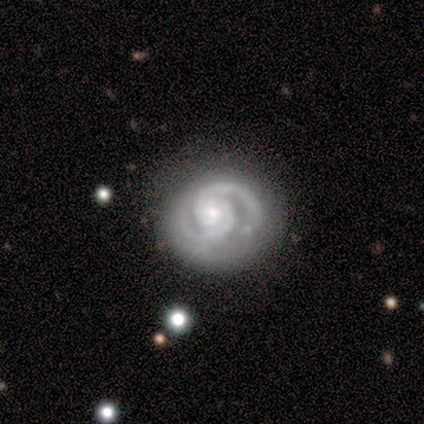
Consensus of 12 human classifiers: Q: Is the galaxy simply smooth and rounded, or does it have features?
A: featured or disk — 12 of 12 (100%).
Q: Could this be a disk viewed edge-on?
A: no — 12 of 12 (100%).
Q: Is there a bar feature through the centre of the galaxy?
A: no — 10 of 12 (83%).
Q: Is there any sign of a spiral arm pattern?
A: yes — 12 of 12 (100%).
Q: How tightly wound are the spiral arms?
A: tight — 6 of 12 (50%, tied with medium).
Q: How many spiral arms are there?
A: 2 — 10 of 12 (83%).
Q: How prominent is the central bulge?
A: small — 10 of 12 (83%).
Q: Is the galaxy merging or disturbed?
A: none — 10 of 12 (83%).